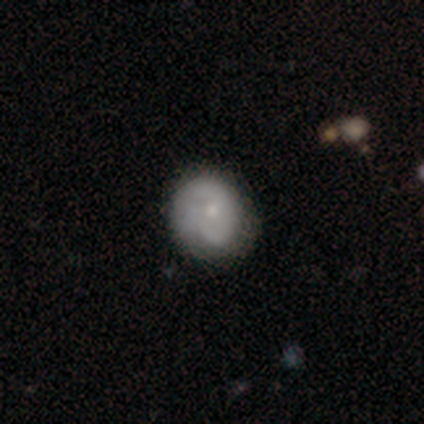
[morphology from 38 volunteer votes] Q: Smooth or featured?
A: featured or disk (50%); runner-up: smooth (42%)
Q: Edge-on disk?
A: no (100%)
Q: Bar?
A: no (84%); runner-up: weak (16%)
Q: Spiral arms?
A: yes (74%); runner-up: no (26%)
Q: Spiral winding?
A: tight (50%); runner-up: loose (29%)
Q: Spiral arm count?
A: 2 (50%); runner-up: 1 (36%)
Q: Bulge size?
A: small (68%); runner-up: moderate (32%)
Q: Merging?
A: none (74%); runner-up: minor disturbance (20%)